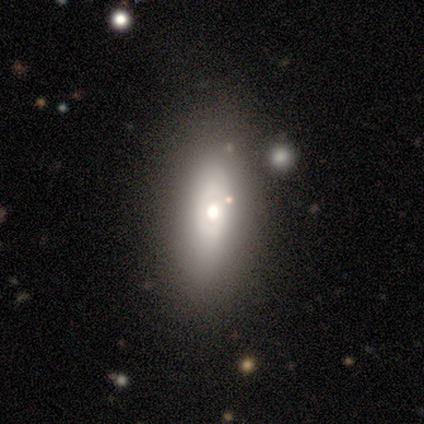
Smooth or featured?
  - smooth: 60% *
  - featured or disk: 30%
  - star or artifact: 10%
How rounded?
  - in between: 71% *
  - cigar-shaped: 21%
  - round: 8%
Merging?
  - none: 72% *
  - minor disturbance: 22%
  - major disturbance: 6%
  - merger: 0%